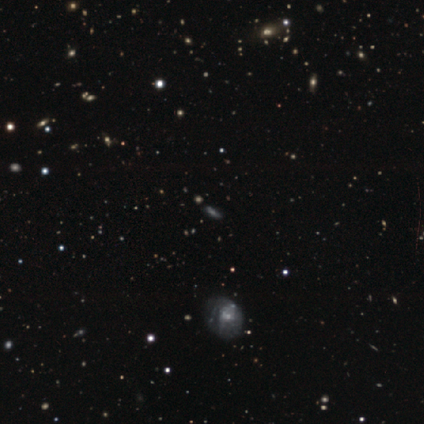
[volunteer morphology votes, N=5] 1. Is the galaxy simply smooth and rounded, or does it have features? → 40% featured or disk (tied), 40% star or artifact (tied), 20% smooth.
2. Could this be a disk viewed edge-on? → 50% yes (tied), 50% no (tied).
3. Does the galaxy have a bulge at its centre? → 100% none, 0% boxy, 0% rounded.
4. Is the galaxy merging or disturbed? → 67% none, 33% merger, 0% minor disturbance, 0% major disturbance.